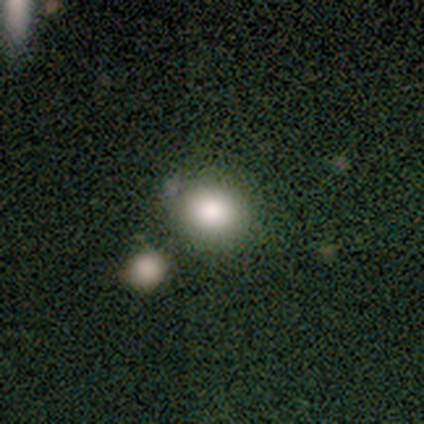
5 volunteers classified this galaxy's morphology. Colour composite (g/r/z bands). It shows a smooth galaxy with no disk features (80%) that is round (50%, tied with in between). Merging: none (100%).